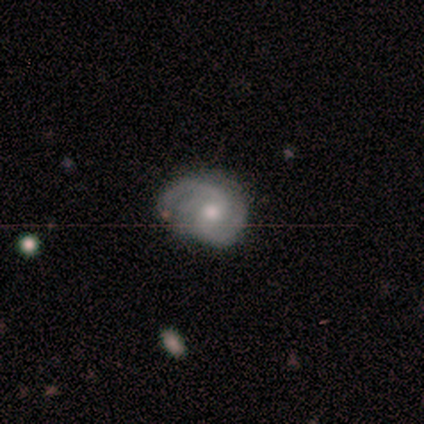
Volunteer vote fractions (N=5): smooth-or-featured: featured or disk: 100% | smooth: 0% | star or artifact: 0%
  disk-edge-on: no: 100% | yes: 0%
    bar: no: 60% | weak: 40% | strong: 0%
    has-spiral-arms: yes: 100% | no: 0%
      spiral-winding: loose: 60% | medium: 40% | tight: 0%
      spiral-arm-count: 2: 80% | 1: 20% | 3: 0% | 4: 0% | more than 4: 0% | can't tell: 0%
    bulge-size: moderate: 80% | small: 20% | dominant: 0% | large: 0% | none: 0%
  merging: none: 60% | minor disturbance: 40% | major disturbance: 0% | merger: 0%